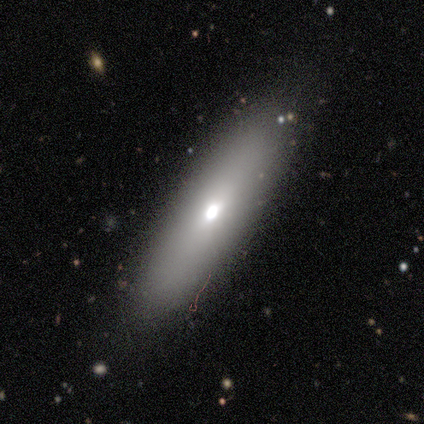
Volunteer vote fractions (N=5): Volunteers were most divided on "how rounded" (2-way tie): in between: 50%, cigar-shaped: 50%, round: 0%. More confident: smooth or featured — smooth (80%); merging — none (60%).